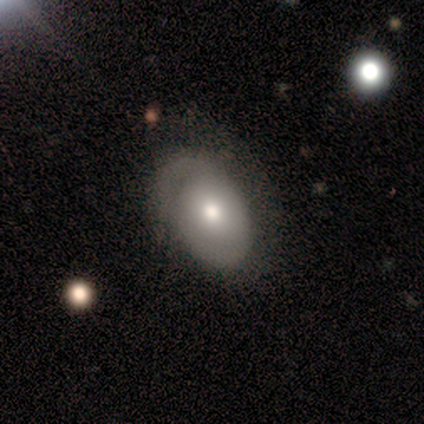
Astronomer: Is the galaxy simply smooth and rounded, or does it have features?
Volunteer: smooth — 40%, tied with featured or disk at 40%.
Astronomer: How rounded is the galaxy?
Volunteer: in between — 100%.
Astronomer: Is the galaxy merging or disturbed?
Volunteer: none — 75%.